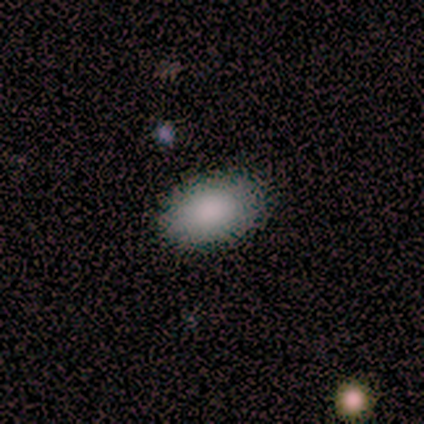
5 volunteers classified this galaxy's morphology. smooth_or_featured: smooth (p=1.00)
how_rounded: in between (p=0.80) [alt: round p=0.20]
merging: none (p=1.00)